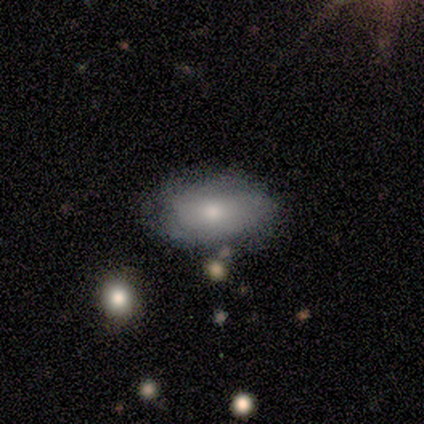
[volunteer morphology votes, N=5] Smooth or featured?
  - smooth: 80% *
  - featured or disk: 20%
  - star or artifact: 0%
How rounded?
  - in between: 100% *
  - round: 0%
  - cigar-shaped: 0%
Merging?
  - minor disturbance: 60% *
  - none: 40%
  - major disturbance: 0%
  - merger: 0%